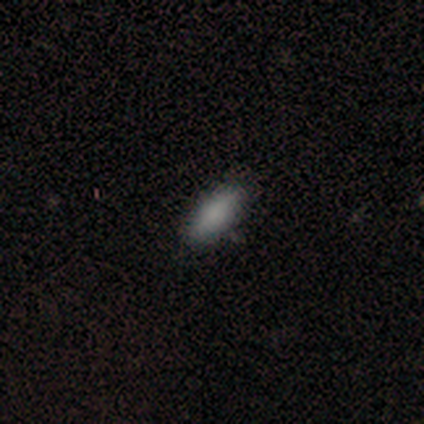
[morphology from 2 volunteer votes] smooth_or_featured: smooth (p=1.00)
how_rounded: in between (p=1.00)
merging: none (p=1.00)